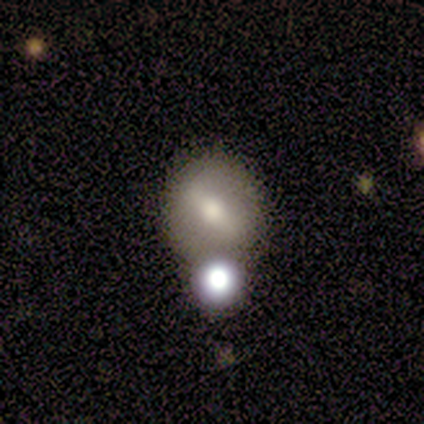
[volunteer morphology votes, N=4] smooth-or-featured: smooth: 50% (tied) | featured or disk: 50% (tied) | star or artifact: 0%
  how-rounded: round: 100% | in between: 0% | cigar-shaped: 0%
  merging: none: 50% (tied) | minor disturbance: 50% (tied) | major disturbance: 0% | merger: 0%